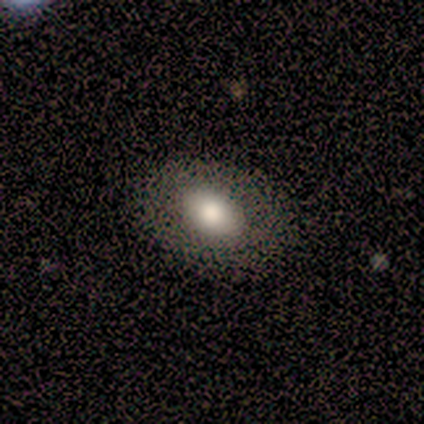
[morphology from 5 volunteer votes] Smooth or featured?
  - smooth: 40% * (tied)
  - featured or disk: 40% * (tied)
  - star or artifact: 20%
How rounded?
  - in between: 100% *
  - round: 0%
  - cigar-shaped: 0%
Merging?
  - none: 75% *
  - major disturbance: 25%
  - minor disturbance: 0%
  - merger: 0%